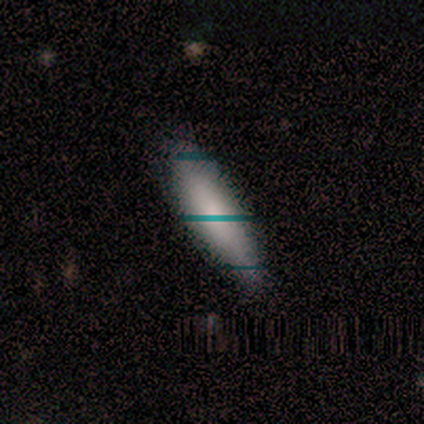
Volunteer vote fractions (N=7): A smooth galaxy with no disk features (86%) that is cigar-shaped (83%).

Vote fractions:
- Smooth or featured? smooth: 86% / star or artifact: 14% / featured or disk: 0%
- How rounded? cigar-shaped: 83% / in between: 17% / round: 0%
- Merging? none: 83% / minor disturbance: 17% / major disturbance: 0% / merger: 0%